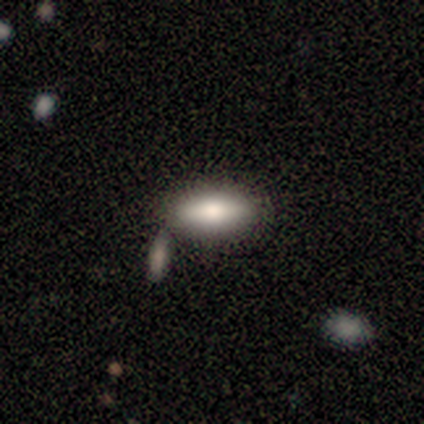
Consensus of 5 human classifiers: Volunteers were most divided on "how rounded": in between: 60%, cigar-shaped: 40%, round: 0%. More confident: smooth or featured — smooth (100%); merging — none (100%).